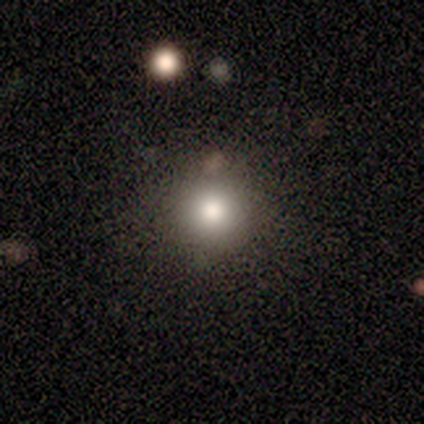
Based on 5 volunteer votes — This is marginally a smooth galaxy (40%, tied with star or artifact). How rounded: clearly round (100%). Merging: clearly none (100%).